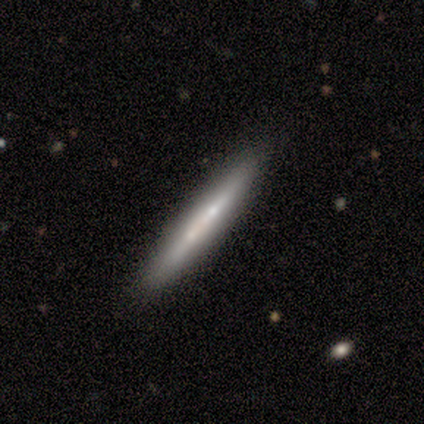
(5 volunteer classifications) Q: Smooth or featured?
A: featured or disk (60%); runner-up: smooth (40%)
Q: Edge-on disk?
A: yes (100%)
Q: Edge-on bulge?
A: none (100%)
Q: Merging?
A: none (100%)